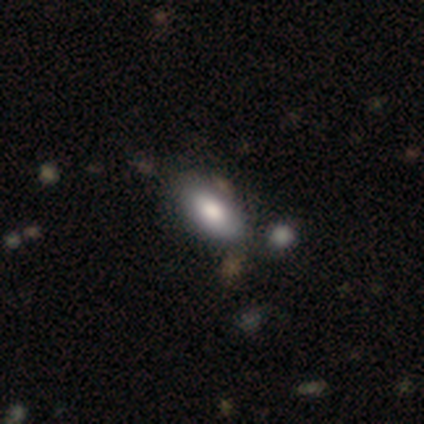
Volunteers were most divided on "merging": none: 62%, minor disturbance: 28%, major disturbance: 9%, merger: 0%. More confident: how rounded — in between (96%); smooth or featured — smooth (74%).